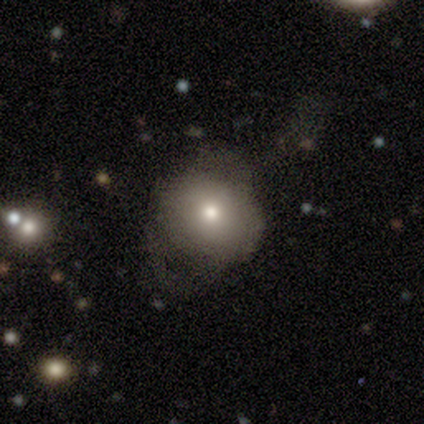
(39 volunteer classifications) smooth 67%, featured or disk 21%, star or artifact 13%. Down the decision tree: how rounded — round (73%); merging — none (62%).